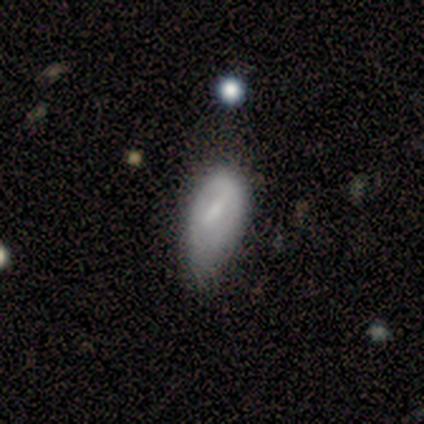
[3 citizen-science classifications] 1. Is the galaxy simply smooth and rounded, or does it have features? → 33% smooth (tied), 33% featured or disk (tied), 33% star or artifact (tied).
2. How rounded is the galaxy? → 100% in between, 0% round, 0% cigar-shaped.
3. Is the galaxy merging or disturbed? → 50% minor disturbance (tied), 50% major disturbance (tied), 0% none, 0% merger.